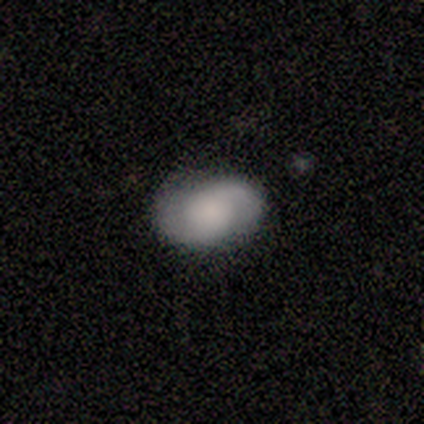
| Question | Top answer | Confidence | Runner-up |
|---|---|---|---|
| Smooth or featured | featured or disk | 49% | smooth (46%) |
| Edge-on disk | no | 100% | — |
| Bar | no | 80% | weak (20%) |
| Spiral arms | yes | 95% | no (5%) |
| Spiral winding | tight | 42% | medium (32%) |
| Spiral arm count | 2 | 95% | 1 (5%) |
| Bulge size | none | 35% | large (30%) |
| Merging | none | 82% | minor disturbance (13%) |